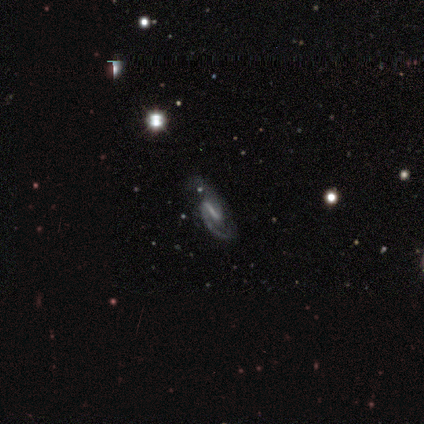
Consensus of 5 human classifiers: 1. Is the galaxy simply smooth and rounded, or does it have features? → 80% featured or disk, 20% smooth, 0% star or artifact.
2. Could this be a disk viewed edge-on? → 100% no, 0% yes.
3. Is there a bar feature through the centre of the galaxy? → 50% strong, 25% weak, 25% no.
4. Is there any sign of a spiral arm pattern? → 100% yes, 0% no.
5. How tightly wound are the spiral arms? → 50% medium (tied), 50% loose (tied), 0% tight.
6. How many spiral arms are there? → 75% 2, 25% 1, 0% 3, 0% 4, 0% more than 4, 0% can't tell.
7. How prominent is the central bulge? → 75% none, 25% small, 0% dominant, 0% large, 0% moderate.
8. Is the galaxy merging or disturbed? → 100% none, 0% minor disturbance, 0% major disturbance, 0% merger.